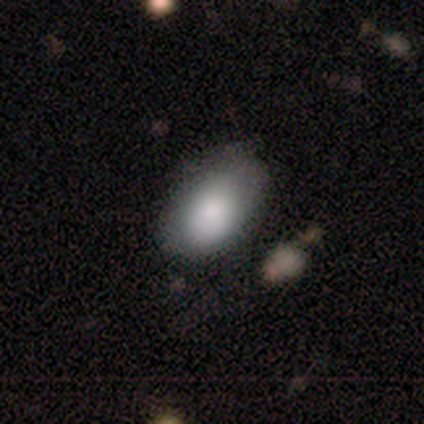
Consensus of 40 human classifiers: Morphology: type=smooth (88%); roundness=in between (86%); merging=none (51%).